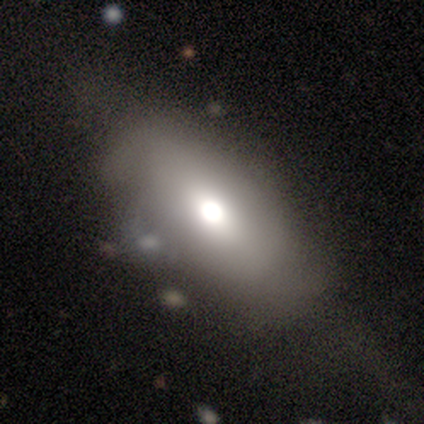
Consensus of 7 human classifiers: smooth-or-featured: star or artifact: 43% | smooth: 29% | featured or disk: 29%